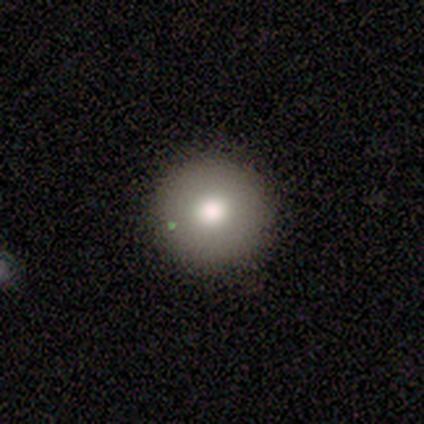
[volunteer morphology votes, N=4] Smooth or featured? smooth (100%)
How rounded? round (100%)
Merging? none (75%)